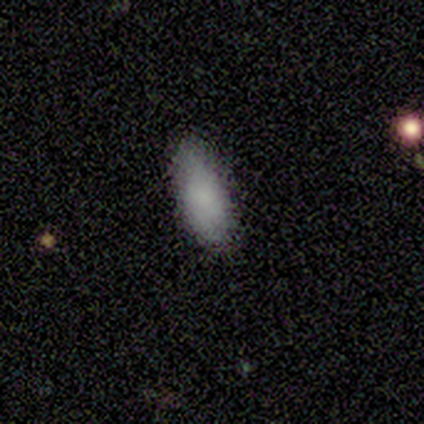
Smooth or featured? smooth (100%)
How rounded? in between (100%)
Merging? none (50%, tied with minor disturbance)